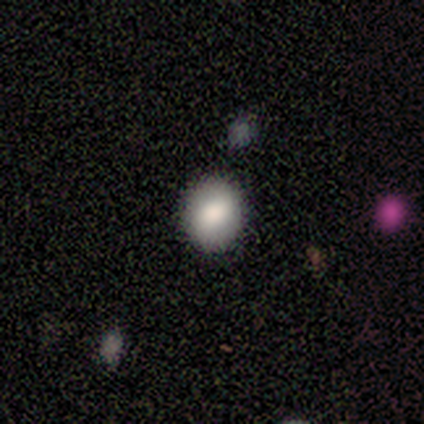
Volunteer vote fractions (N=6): Smooth or featured? smooth (83%)
How rounded? round (60%)
Merging? none (67%)